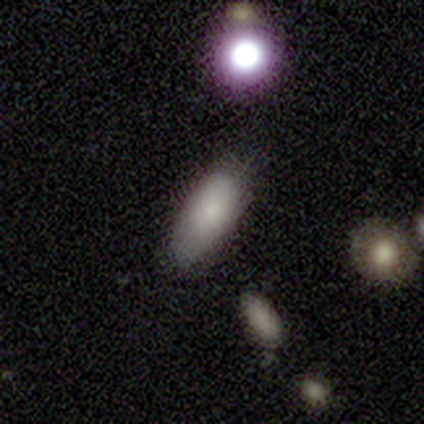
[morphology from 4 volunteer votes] type=smooth (100%); roundness=in between (75%); merging=none (50%, tied with minor disturbance).